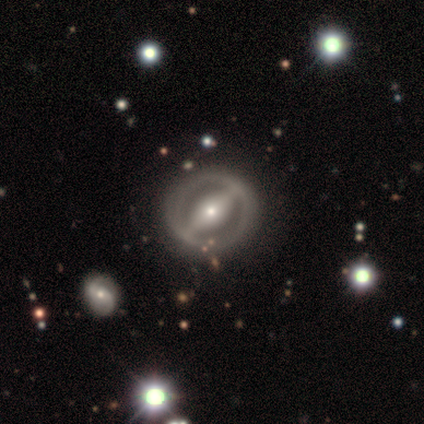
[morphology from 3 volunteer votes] A featured or disk galaxy (100%) with a strong bar (67%), no spiral arms (100%) and a moderate central bulge (67%).

Vote fractions:
- Smooth or featured? featured or disk: 100% / smooth: 0% / star or artifact: 0%
- Edge-on disk? no: 100% / yes: 0%
- Bar? strong: 67% / weak: 33% / no: 0%
- Spiral arms? no: 100% / yes: 0%
- Bulge size? moderate: 67% / small: 33% / dominant: 0% / large: 0% / none: 0%
- Merging? none: 67% / minor disturbance: 33% / major disturbance: 0% / merger: 0%